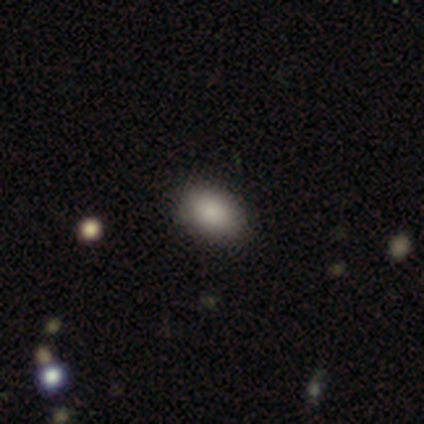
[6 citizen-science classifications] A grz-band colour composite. It shows a smooth galaxy with no disk features (83%) that is in between round and cigar-shaped (80%). Merging: none (100%).